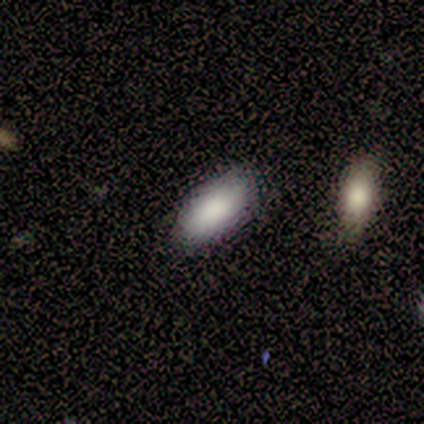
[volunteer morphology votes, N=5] type=smooth (100%); roundness=in between (100%); merging=none (60%).